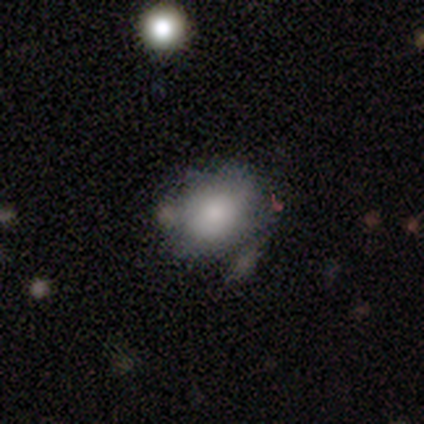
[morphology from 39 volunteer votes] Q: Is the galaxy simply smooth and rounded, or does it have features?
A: smooth — 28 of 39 (72%).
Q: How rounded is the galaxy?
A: in between — 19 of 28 (68%).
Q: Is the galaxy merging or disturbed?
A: none — 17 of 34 (50%).